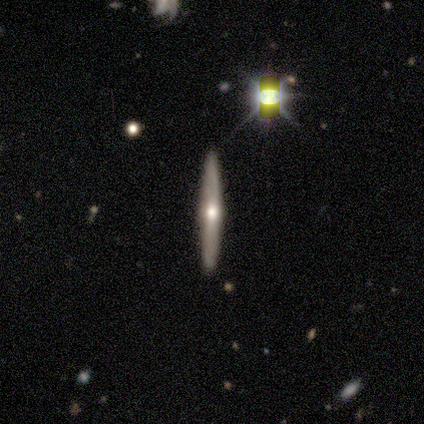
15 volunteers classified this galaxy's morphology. Smooth or featured? featured or disk (67%)
Edge-on disk? yes (90%)
Edge-on bulge? rounded (100%)
Merging? none (100%)